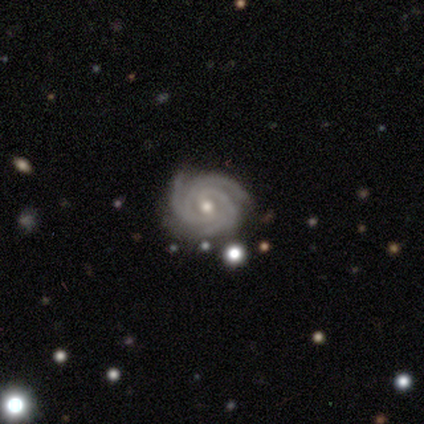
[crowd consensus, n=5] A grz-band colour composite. It shows a featured or disk galaxy (100%) with a weak bar (60%), 3 (100%) tight (100%) spiral arms (100%) and a moderate central bulge (80%). Merging: none (80%).